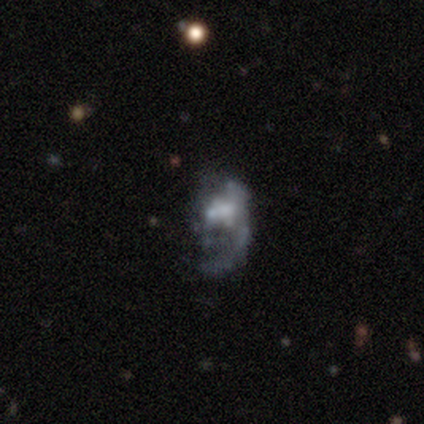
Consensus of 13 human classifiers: This is likely a featured or disk galaxy (69%). It is clearly not viewed edge-on (100%). Bar: likely no (78%). Spiral arm pattern: clearly no (89%). Central bulge: likely moderate (67%). Merging: possibly major disturbance (56%).